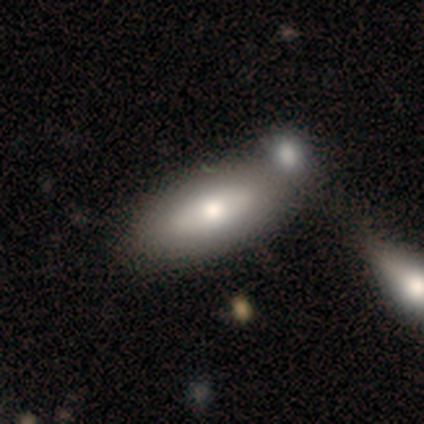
This is clearly a featured or disk galaxy (80%). It is possibly viewed edge-on (50%, tied with no). Edge-on bulge: clearly boxy (100%). Merging: likely merger (60%).